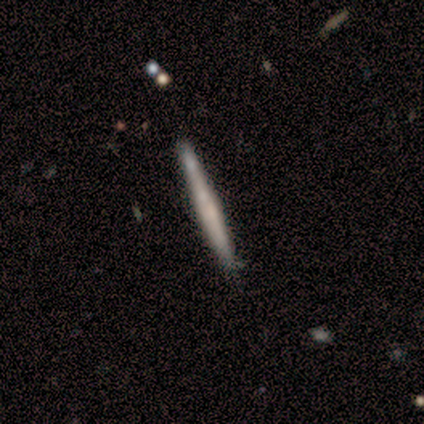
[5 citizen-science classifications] Volunteers were most divided on "smooth or featured": featured or disk: 60%, smooth: 40%, star or artifact: 0%. More confident: edge-on disk — yes (100%); edge-on bulge — none (100%); merging — none (100%).